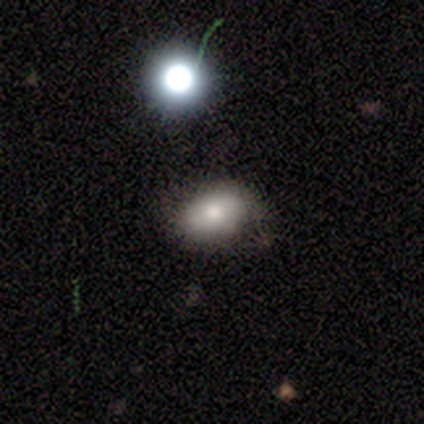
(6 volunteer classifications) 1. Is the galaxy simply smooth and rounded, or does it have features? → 83% smooth, 17% featured or disk, 0% star or artifact.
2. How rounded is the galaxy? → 100% in between, 0% round, 0% cigar-shaped.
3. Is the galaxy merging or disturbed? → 67% none, 33% minor disturbance, 0% major disturbance, 0% merger.